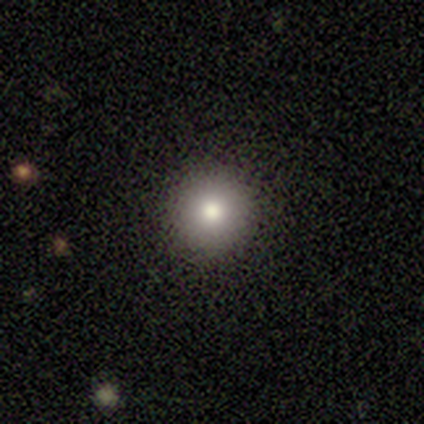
Smooth or featured? smooth (74%)
How rounded? round (96%)
Merging? none (91%)